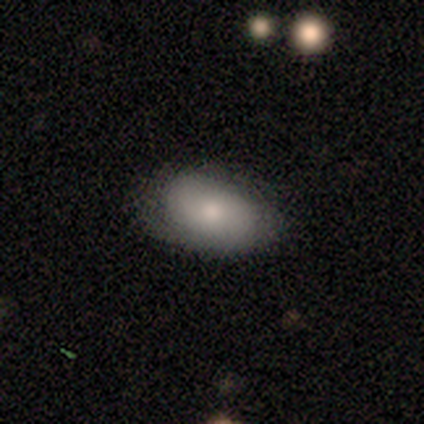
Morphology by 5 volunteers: A smooth galaxy with no disk features (80%) that is in between round and cigar-shaped (100%).

Vote fractions:
- Smooth or featured? smooth: 80% / featured or disk: 20% / star or artifact: 0%
- How rounded? in between: 100% / round: 0% / cigar-shaped: 0%
- Merging? none: 40% (tied) / minor disturbance: 40% (tied) / merger: 20% / major disturbance: 0%